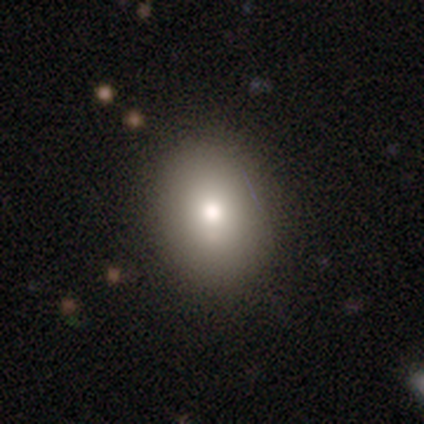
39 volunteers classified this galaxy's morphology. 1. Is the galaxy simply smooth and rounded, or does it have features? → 64% smooth, 23% star or artifact, 13% featured or disk.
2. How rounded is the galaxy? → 52% round, 48% in between, 0% cigar-shaped.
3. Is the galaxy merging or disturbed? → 73% none, 13% minor disturbance, 13% major disturbance, 0% merger.